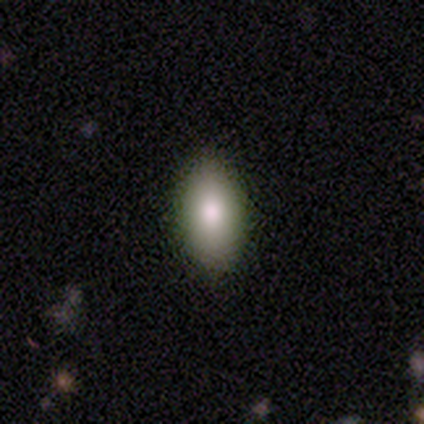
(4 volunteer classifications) smooth-or-featured: smooth: 75% | star or artifact: 25% | featured or disk: 0%
  how-rounded: in between: 100% | round: 0% | cigar-shaped: 0%
  merging: none: 100% | minor disturbance: 0% | major disturbance: 0% | merger: 0%